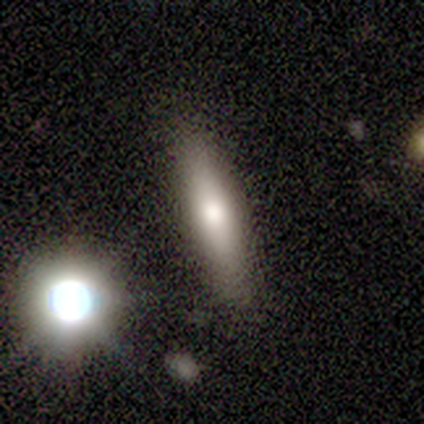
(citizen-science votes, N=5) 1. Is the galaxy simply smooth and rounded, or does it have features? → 60% featured or disk, 40% smooth, 0% star or artifact.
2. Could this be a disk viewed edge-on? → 100% yes, 0% no.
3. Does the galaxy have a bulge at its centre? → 100% rounded, 0% boxy, 0% none.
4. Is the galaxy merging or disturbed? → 60% none, 20% minor disturbance, 20% merger, 0% major disturbance.